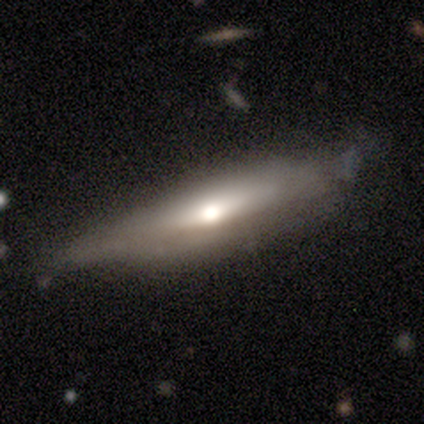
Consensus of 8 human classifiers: smooth-or-featured: smooth: 75% | featured or disk: 25% | star or artifact: 0%
  how-rounded: cigar-shaped: 83% | in between: 17% | round: 0%
  merging: minor disturbance: 62% | none: 38% | major disturbance: 0% | merger: 0%